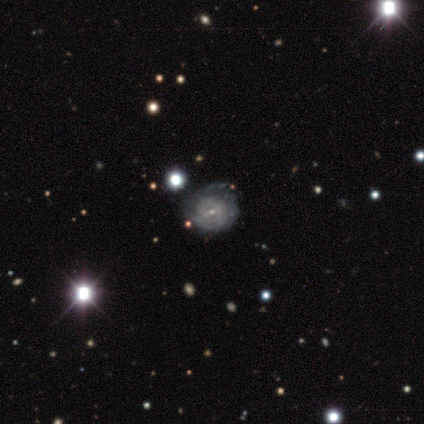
featured or disk 89%, star or artifact 11%, smooth 0%. Down the decision tree: edge-on disk — no (100%); bar — no (62%); spiral arms — yes (62%); spiral arm count — 3 (40%, tied with can't tell); spiral winding — tight (80%); bulge size — small (62%); merging — minor disturbance (75%).